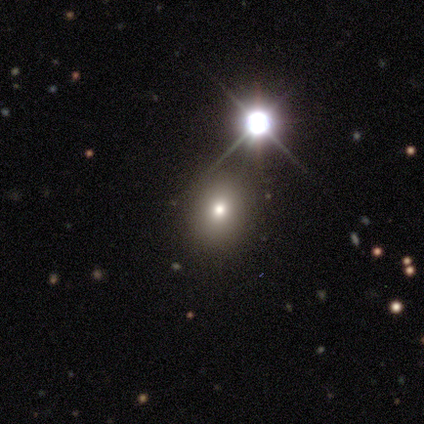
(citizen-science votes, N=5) A smooth galaxy with no disk features (60%) that is round (67%). Merging: none (100%).